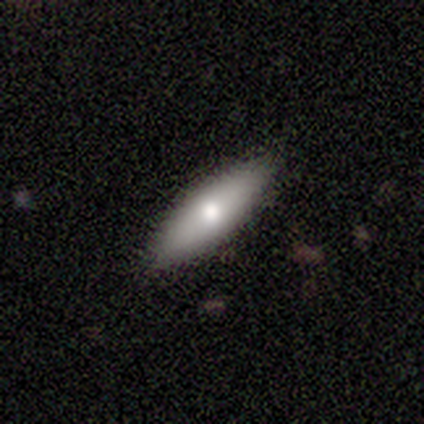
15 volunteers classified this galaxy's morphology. smooth_or_featured: smooth (p=0.53) [alt: featured or disk p=0.40]
how_rounded: in between (p=0.75) [alt: cigar-shaped p=0.25]
merging: none (p=0.93) [alt: minor disturbance p=0.07]